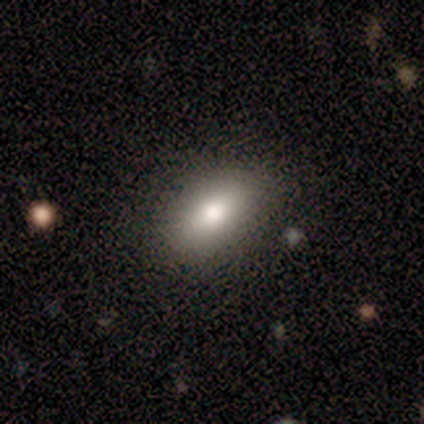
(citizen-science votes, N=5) smooth 100%, featured or disk 0%, star or artifact 0%. Down the decision tree: how rounded — in between (100%); merging — none (100%).